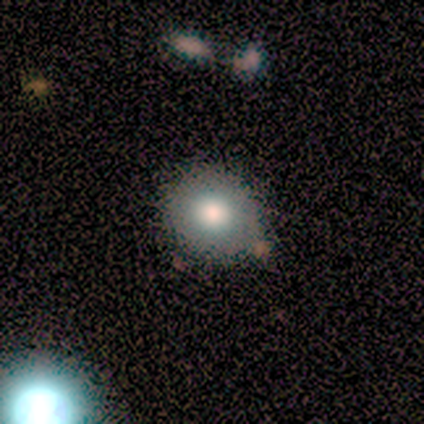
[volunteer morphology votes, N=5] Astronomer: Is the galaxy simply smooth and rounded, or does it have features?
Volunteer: smooth — 80%.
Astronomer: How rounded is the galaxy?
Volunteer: round — 75%.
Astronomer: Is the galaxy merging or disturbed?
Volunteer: none — 100%.